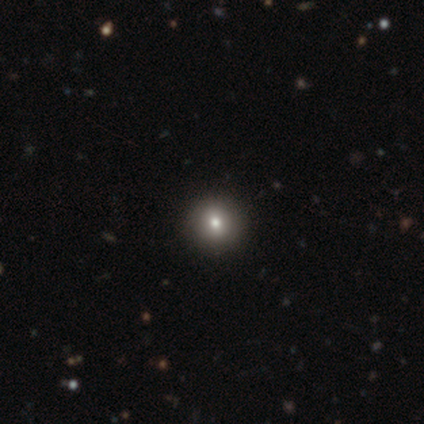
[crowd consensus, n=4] Smooth or featured?
  - featured or disk: 50% *
  - smooth: 25%
  - star or artifact: 25%
Edge-on disk?
  - no: 100% *
  - yes: 0%
Bar?
  - weak: 50% * (tied)
  - no: 50% * (tied)
  - strong: 0%
Spiral arms?
  - no: 100% *
  - yes: 0%
Bulge size?
  - moderate: 100% *
  - dominant: 0%
  - large: 0%
  - small: 0%
  - none: 0%
Merging?
  - none: 100% *
  - minor disturbance: 0%
  - major disturbance: 0%
  - merger: 0%